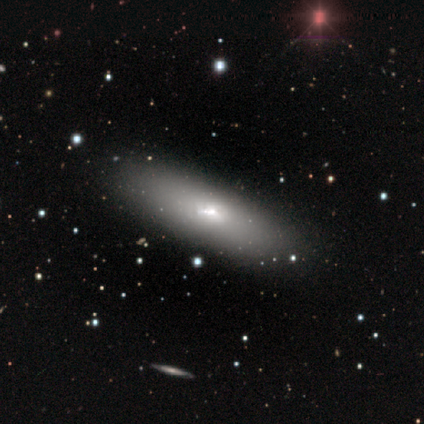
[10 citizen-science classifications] This appears to be a smooth galaxy with no disk features (50%, tied with featured or disk) that is in between round and cigar-shaped (100%). Merging: none (70%).